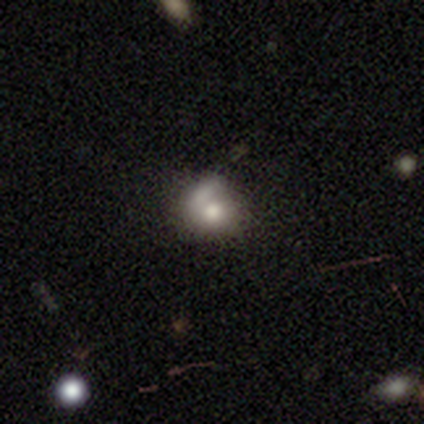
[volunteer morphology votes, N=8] Volunteers were most divided on "merging": none: 57%, minor disturbance: 43%, major disturbance: 0%, merger: 0%. More confident: how rounded — round (80%); smooth or featured — smooth (62%).